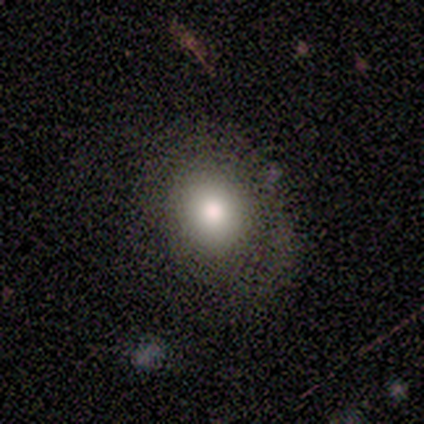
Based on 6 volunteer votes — Q: Smooth or featured?
A: smooth (67%); runner-up: featured or disk (33%)
Q: How rounded?
A: round (50%); tied with: in between (50%)
Q: Merging?
A: none (67%); runner-up: minor disturbance (17%)